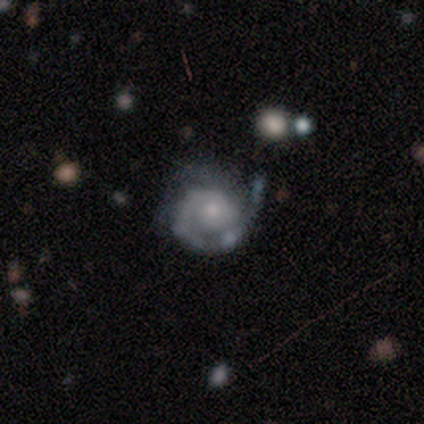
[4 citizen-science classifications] Morphology: type=featured or disk (100%); edge-on=no (100%); bar=no (100%); spiral arms=yes (100%); winding=tight (75%); arm count=1 (75%); bulge=small (75%); merging=none (75%).